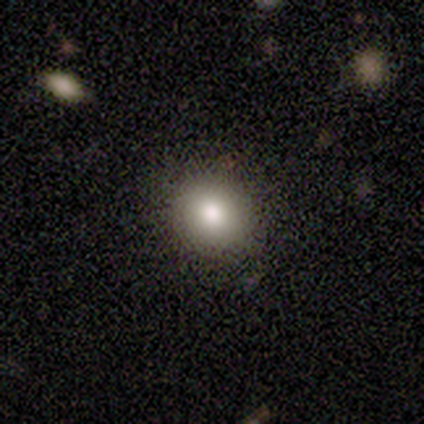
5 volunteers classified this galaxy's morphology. This is clearly a smooth galaxy (80%). How rounded: clearly round (100%). Merging: clearly none (100%).